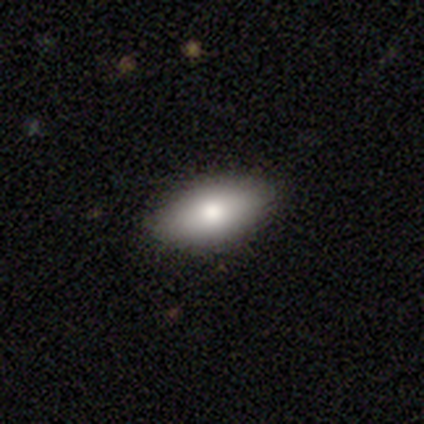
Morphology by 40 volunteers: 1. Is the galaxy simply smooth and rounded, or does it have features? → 88% smooth, 8% featured or disk, 5% star or artifact.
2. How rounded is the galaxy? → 86% in between, 14% cigar-shaped, 0% round.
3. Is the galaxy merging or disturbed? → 84% none, 11% minor disturbance, 5% major disturbance, 0% merger.